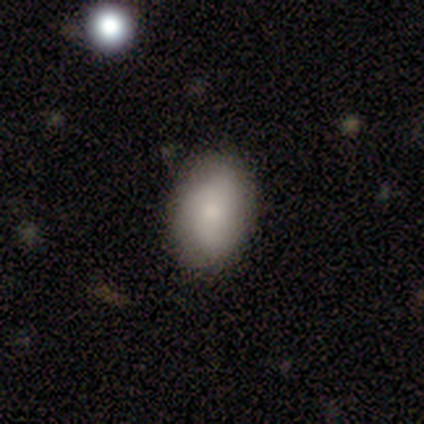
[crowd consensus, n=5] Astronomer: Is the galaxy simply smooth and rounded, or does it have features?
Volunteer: smooth — 60%.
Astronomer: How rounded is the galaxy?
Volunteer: in between — 100%.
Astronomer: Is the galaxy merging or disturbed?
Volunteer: none — 75%.